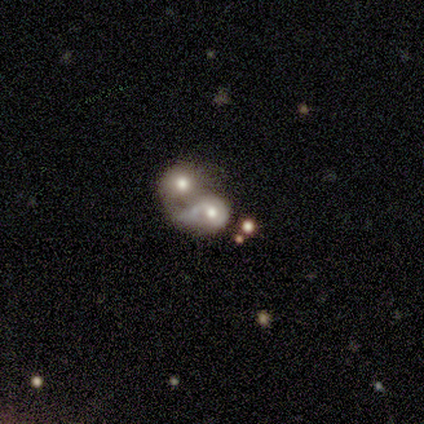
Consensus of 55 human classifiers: Q: Smooth or featured?
A: featured or disk (51%); runner-up: smooth (40%)
Q: Edge-on disk?
A: no (96%); runner-up: yes (4%)
Q: Bar?
A: no (89%); runner-up: weak (7%)
Q: Spiral arms?
A: no (59%); runner-up: yes (41%)
Q: Bulge size?
A: moderate (63%); runner-up: large (22%)
Q: Merging?
A: merger (90%); runner-up: none (4%)